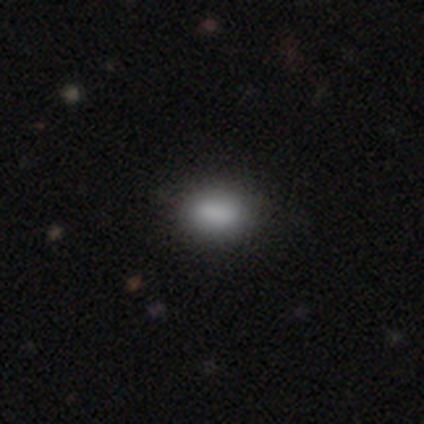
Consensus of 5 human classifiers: Volunteers were most divided on "how rounded": in between: 75%, round: 25%, cigar-shaped: 0%. More confident: merging — none (100%); smooth or featured — smooth (80%).